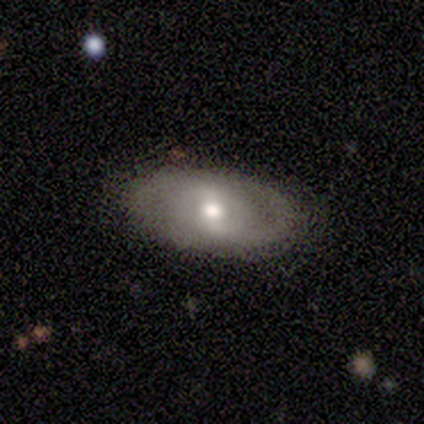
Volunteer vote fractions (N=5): A featured or disk galaxy (60%) with a weak bar (100%), 2 (50%, tied with can't tell) medium (50%, tied with loose) spiral arms (100%) and a moderate central bulge (100%).

Vote fractions:
- Smooth or featured? featured or disk: 60% / smooth: 40% / star or artifact: 0%
- Edge-on disk? no: 67% / yes: 33%
- Bar? weak: 100% / strong: 0% / no: 0%
- Spiral arms? yes: 100% / no: 0%
- Spiral winding? medium: 50% (tied) / loose: 50% (tied) / tight: 0%
- Spiral arm count? 2: 50% (tied) / can't tell: 50% (tied) / 1: 0% / 3: 0% / 4: 0% / more than 4: 0%
- Bulge size? moderate: 100% / dominant: 0% / large: 0% / small: 0% / none: 0%
- Merging? none: 100% / minor disturbance: 0% / major disturbance: 0% / merger: 0%